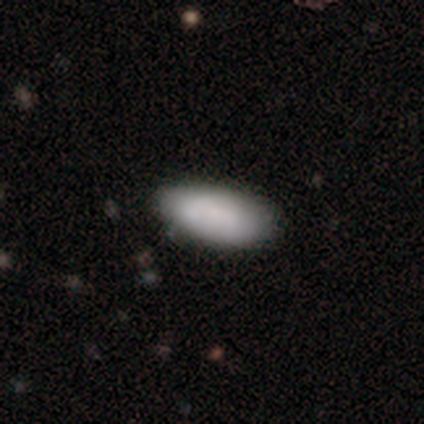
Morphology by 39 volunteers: A smooth galaxy with no disk features (82%) that is in between round and cigar-shaped (94%).

Vote fractions:
- Smooth or featured? smooth: 82% / featured or disk: 15% / star or artifact: 3%
- How rounded? in between: 94% / cigar-shaped: 6% / round: 0%
- Merging? none: 82% / minor disturbance: 18% / major disturbance: 0% / merger: 0%